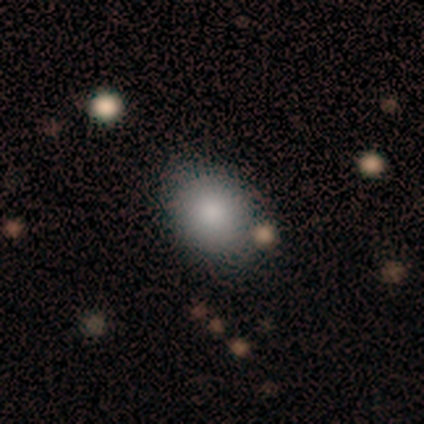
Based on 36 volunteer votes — Smooth or featured: smooth — 94% (featured or disk — 3%)
How rounded: in between — 53% (round — 47%)
Merging: none — 83% (minor disturbance — 14%)